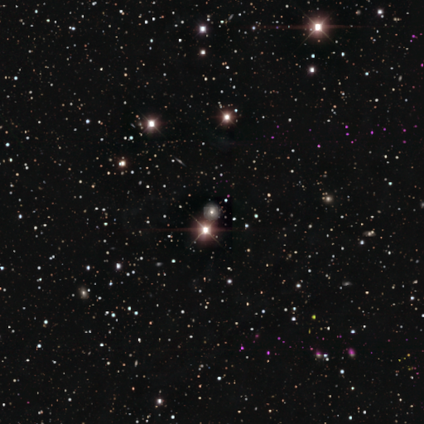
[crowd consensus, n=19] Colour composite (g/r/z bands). It shows a star or artifact, not a galaxy (89%).